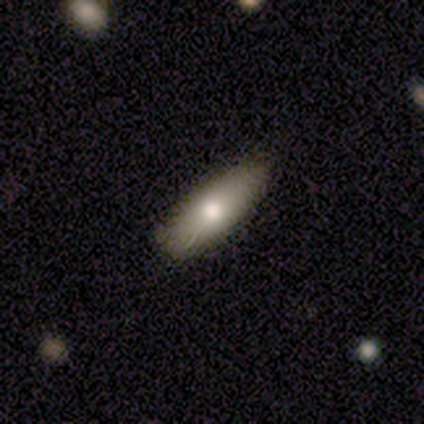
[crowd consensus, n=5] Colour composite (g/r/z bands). It shows a smooth galaxy with no disk features (60%) that is cigar-shaped (67%). Merging: none (80%).